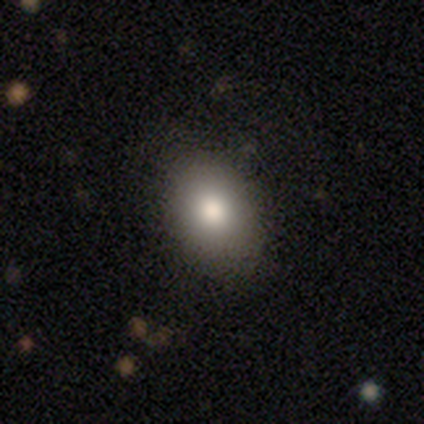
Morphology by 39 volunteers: type=smooth (82%); roundness=in between (78%); merging=none (64%).